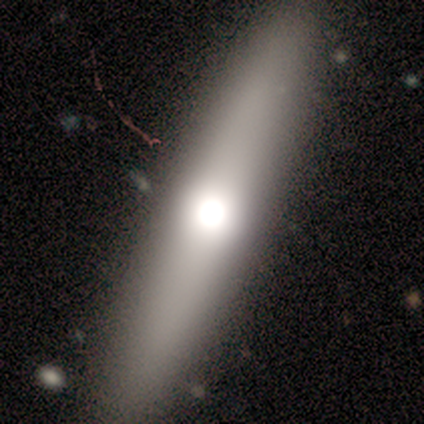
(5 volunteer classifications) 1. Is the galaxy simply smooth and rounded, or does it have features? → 60% featured or disk, 40% smooth, 0% star or artifact.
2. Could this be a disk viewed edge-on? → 100% yes, 0% no.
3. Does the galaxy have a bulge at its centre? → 100% rounded, 0% boxy, 0% none.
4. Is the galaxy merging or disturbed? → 100% none, 0% minor disturbance, 0% major disturbance, 0% merger.